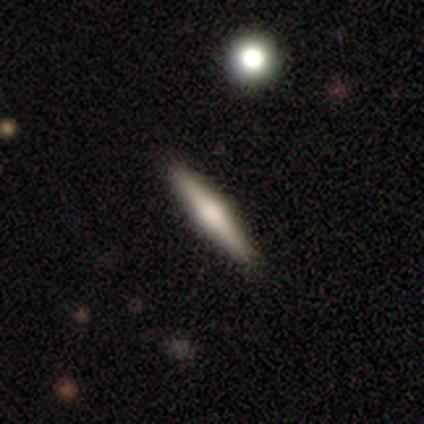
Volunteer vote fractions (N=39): Q: Smooth or featured?
A: featured or disk (56%); runner-up: smooth (41%)
Q: Edge-on disk?
A: yes (100%)
Q: Edge-on bulge?
A: rounded (73%); runner-up: none (23%)
Q: Merging?
A: none (95%); runner-up: major disturbance (3%)